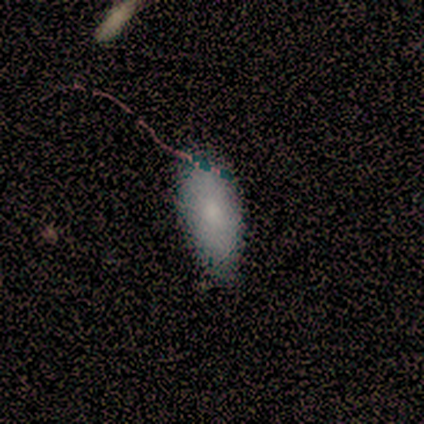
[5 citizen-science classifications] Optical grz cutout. It shows a smooth galaxy with no disk features (80%) that is in between round and cigar-shaped (100%). Merging: minor disturbance (75%).